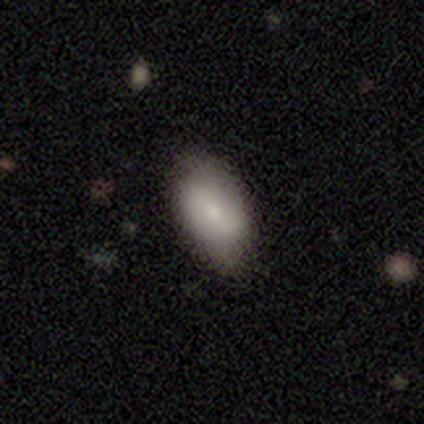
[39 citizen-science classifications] Smooth or featured: smooth — 72% (featured or disk — 18%)
How rounded: in between — 89% (round — 7%)
Merging: none — 77% (minor disturbance — 23%)